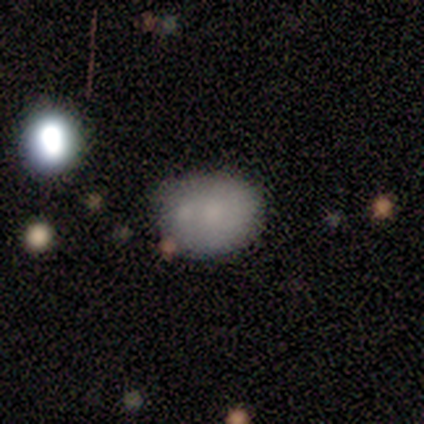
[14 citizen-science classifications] smooth 86%, featured or disk 7%, star or artifact 7%. Down the decision tree: how rounded — in between (67%); merging — minor disturbance (38%).